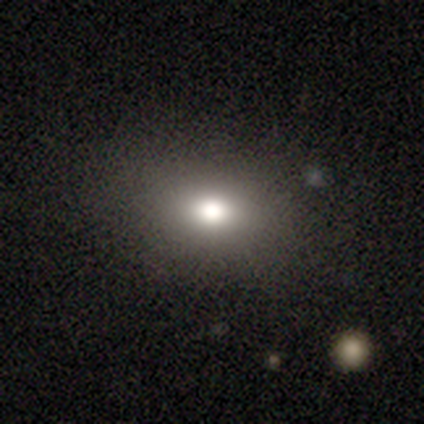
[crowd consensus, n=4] smooth_or_featured: smooth (p=0.75) [alt: star or artifact p=0.25]
how_rounded: in between (p=0.67) [alt: round p=0.33]
merging: none (p=0.67) [alt: minor disturbance p=0.33]